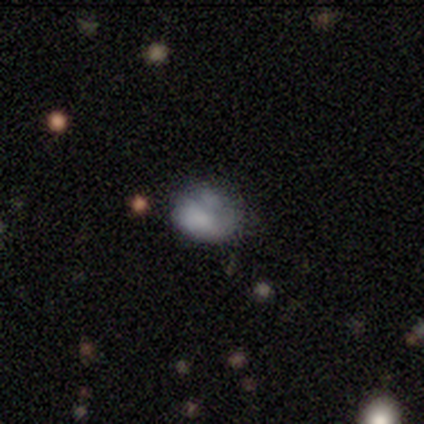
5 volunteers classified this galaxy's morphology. type=featured or disk (60%); edge-on=no (67%); bar=no (100%); spiral arms=no (100%); bulge=moderate (50%, tied with none); merging=minor disturbance (40%).